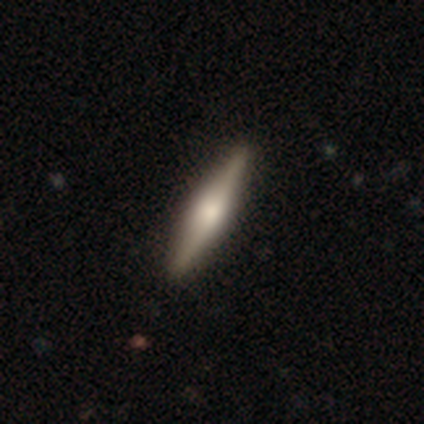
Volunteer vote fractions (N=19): This is likely a featured or disk galaxy (68%). It is clearly viewed edge-on (85%). Edge-on bulge: clearly rounded (82%). Merging: clearly none (89%).